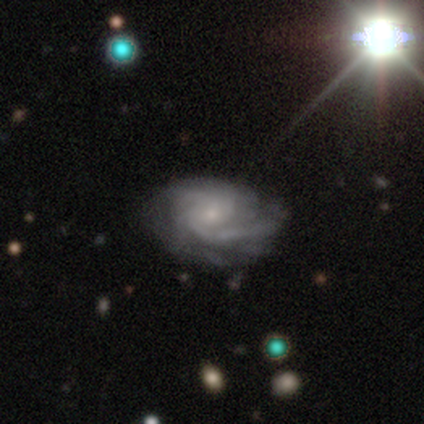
This appears to be a featured or disk galaxy (95%) with no bar (68%), 2 (35%, tied with can't tell) medium (57%) spiral arms (100%) and a small central bulge (76%). Merging: none (61%).